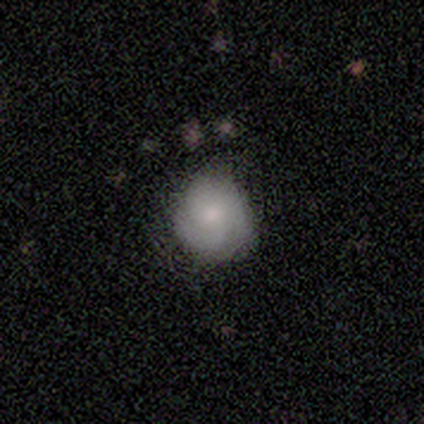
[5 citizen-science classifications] This appears to be a smooth galaxy with no disk features (60%) that is round (67%). Merging: minor disturbance (80%).